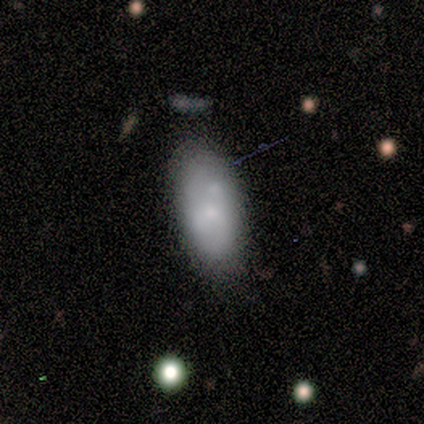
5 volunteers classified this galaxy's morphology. Smooth or featured?
  - smooth: 60% *
  - featured or disk: 40%
  - star or artifact: 0%
How rounded?
  - in between: 100% *
  - round: 0%
  - cigar-shaped: 0%
Merging?
  - none: 60% *
  - minor disturbance: 20%
  - major disturbance: 20%
  - merger: 0%